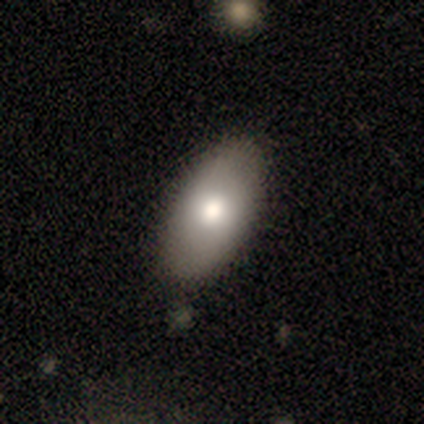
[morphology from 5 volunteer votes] This is clearly a smooth galaxy (100%). How rounded: clearly in between (100%). Merging: clearly none (100%).